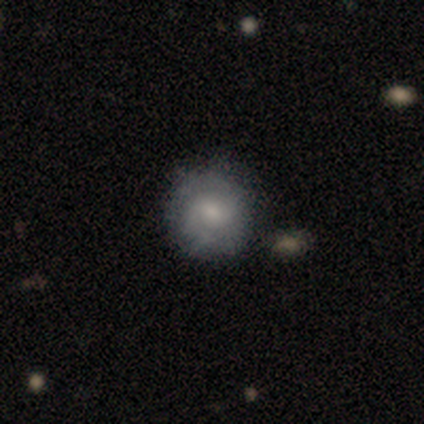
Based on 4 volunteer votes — A smooth galaxy with no disk features (50%, tied with featured or disk) that is round (100%). Merging: none (75%).